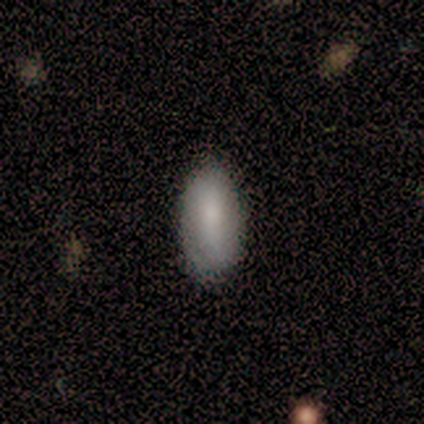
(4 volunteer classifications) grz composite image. It shows a smooth galaxy with no disk features (75%) that is in between round and cigar-shaped (67%). Merging: none (75%).